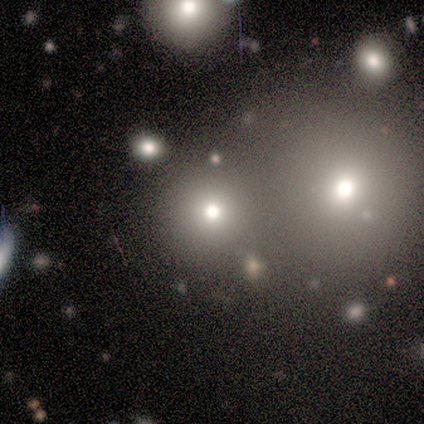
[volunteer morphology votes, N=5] A smooth galaxy with no disk features (40%, tied with star or artifact) that is round (100%). Merging: none (100%).